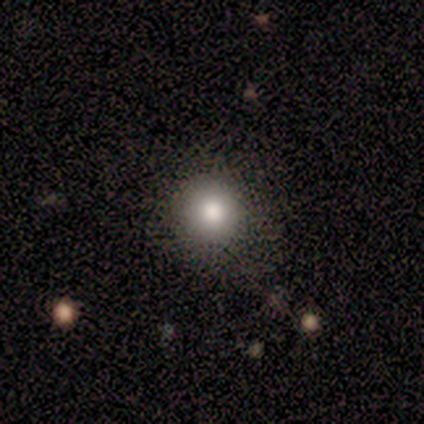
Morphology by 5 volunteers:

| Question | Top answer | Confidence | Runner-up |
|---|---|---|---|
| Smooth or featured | smooth | 100% | — |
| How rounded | round | 80% | in between (20%) |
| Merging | none | 100% | — |